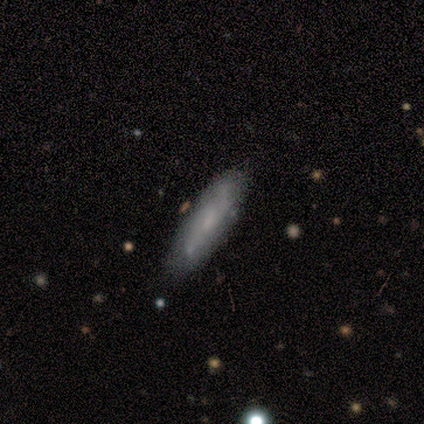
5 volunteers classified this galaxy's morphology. A featured or disk galaxy (60%) with no bar (67%), tight (67%) spiral arms (100%) and a small central bulge (67%).

Vote fractions:
- Smooth or featured? featured or disk: 60% / smooth: 40% / star or artifact: 0%
- Edge-on disk? no: 100% / yes: 0%
- Bar? no: 67% / weak: 33% / strong: 0%
- Spiral arms? yes: 100% / no: 0%
- Spiral winding? tight: 67% / medium: 33% / loose: 0%
- Spiral arm count? can't tell: 67% / 2: 33% / 1: 0% / 3: 0% / 4: 0% / more than 4: 0%
- Bulge size? small: 67% / none: 33% / dominant: 0% / large: 0% / moderate: 0%
- Merging? none: 80% / minor disturbance: 20% / major disturbance: 0% / merger: 0%